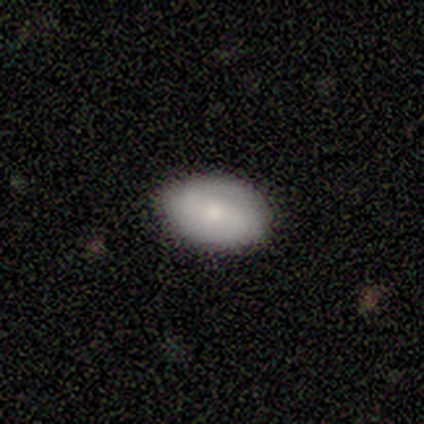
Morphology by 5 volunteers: This appears to be a smooth galaxy with no disk features (80%) that is in between round and cigar-shaped (75%). Merging: none (100%).